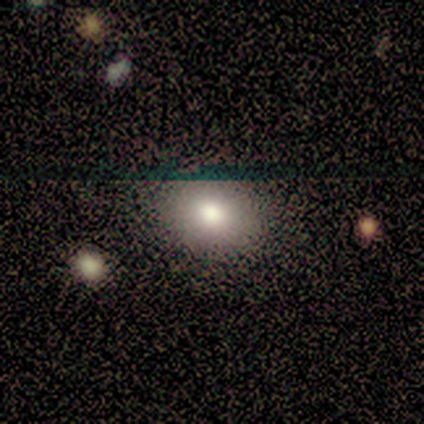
Smooth or featured? smooth (80%)
How rounded? in between (75%)
Merging? none (100%)